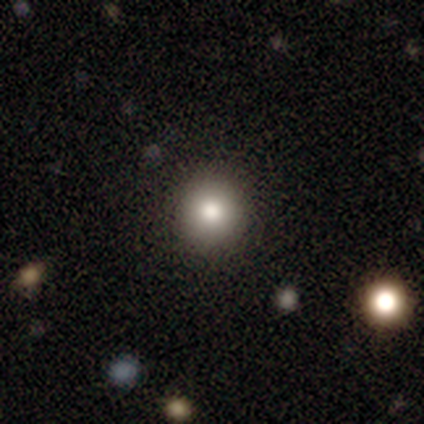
Smooth or featured?
  - smooth: 75% *
  - star or artifact: 25%
  - featured or disk: 0%
How rounded?
  - round: 100% *
  - in between: 0%
  - cigar-shaped: 0%
Merging?
  - none: 100% *
  - minor disturbance: 0%
  - major disturbance: 0%
  - merger: 0%